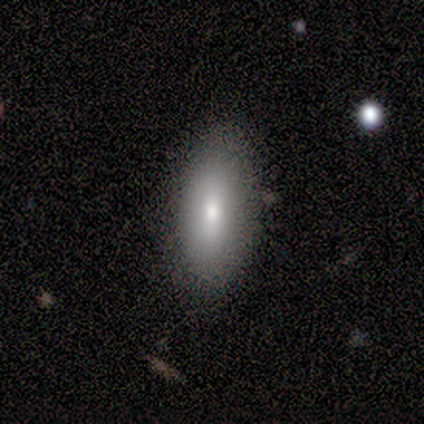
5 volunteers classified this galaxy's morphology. A featured or disk galaxy (40%, tied with star or artifact) viewed edge-on (50%, tied with no) with a rounded central bulge (100%). Merging: none (100%).